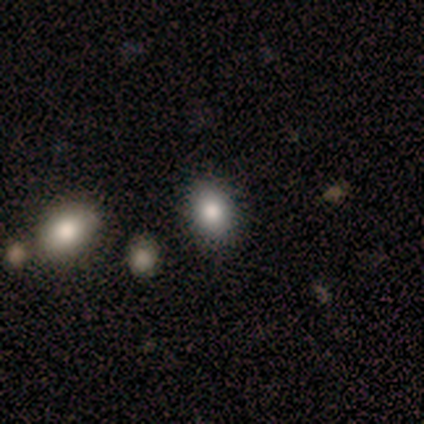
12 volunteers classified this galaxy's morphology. Overall: smooth (100%). How rounded: in between (67%; round 33%). Merging: none (83%).